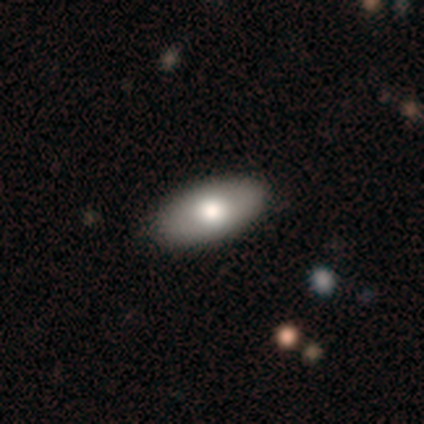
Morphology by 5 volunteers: Smooth or featured?
  - featured or disk: 60% *
  - smooth: 40%
  - star or artifact: 0%
Edge-on disk?
  - no: 67% *
  - yes: 33%
Bar?
  - weak: 50% * (tied)
  - no: 50% * (tied)
  - strong: 0%
Spiral arms?
  - no: 100% *
  - yes: 0%
Bulge size?
  - moderate: 100% *
  - dominant: 0%
  - large: 0%
  - small: 0%
  - none: 0%
Merging?
  - none: 100% *
  - minor disturbance: 0%
  - major disturbance: 0%
  - merger: 0%